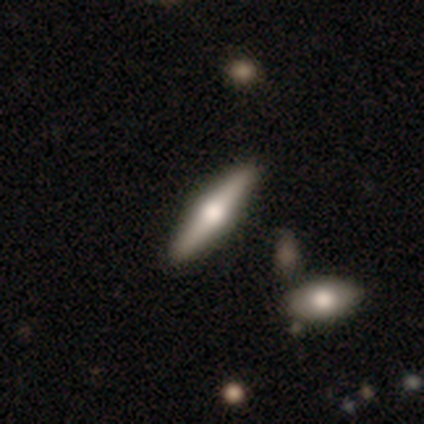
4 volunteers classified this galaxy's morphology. type=smooth (50%, tied with featured or disk); roundness=in between (50%, tied with cigar-shaped); merging=none (100%).